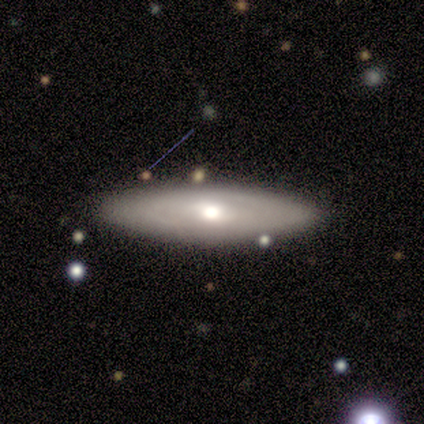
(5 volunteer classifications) Smooth or featured?
  - featured or disk: 60% *
  - smooth: 40%
  - star or artifact: 0%
Edge-on disk?
  - no: 100% *
  - yes: 0%
Bar?
  - no: 67% *
  - weak: 33%
  - strong: 0%
Spiral arms?
  - no: 100% *
  - yes: 0%
Bulge size?
  - moderate: 67% *
  - small: 33%
  - dominant: 0%
  - large: 0%
  - none: 0%
Merging?
  - none: 100% *
  - minor disturbance: 0%
  - major disturbance: 0%
  - merger: 0%